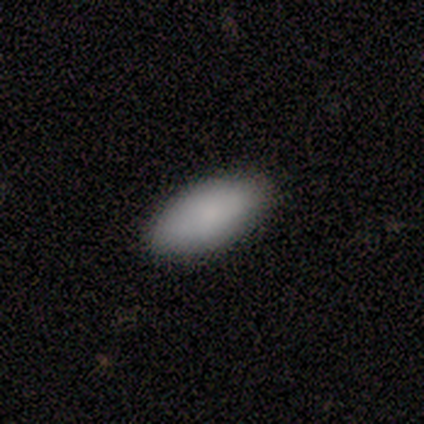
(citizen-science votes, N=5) Smooth or featured: smooth — 80% (star or artifact — 20%)
How rounded: in between — 100%
Merging: none — 100%